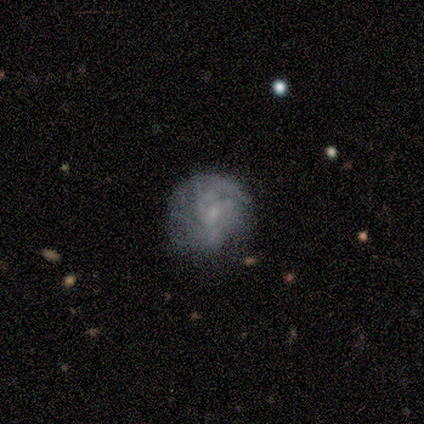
Smooth or featured?
  - featured or disk: 40% * (tied)
  - star or artifact: 40% * (tied)
  - smooth: 20%
Edge-on disk?
  - no: 100% *
  - yes: 0%
Bar?
  - strong: 50% * (tied)
  - no: 50% * (tied)
  - weak: 0%
Spiral arms?
  - yes: 100% *
  - no: 0%
Spiral winding?
  - tight: 100% *
  - medium: 0%
  - loose: 0%
Spiral arm count?
  - 2: 50% * (tied)
  - can't tell: 50% * (tied)
  - 1: 0%
  - 3: 0%
  - 4: 0%
  - more than 4: 0%
Bulge size?
  - small: 100% *
  - dominant: 0%
  - large: 0%
  - moderate: 0%
  - none: 0%
Merging?
  - none: 100% *
  - minor disturbance: 0%
  - major disturbance: 0%
  - merger: 0%